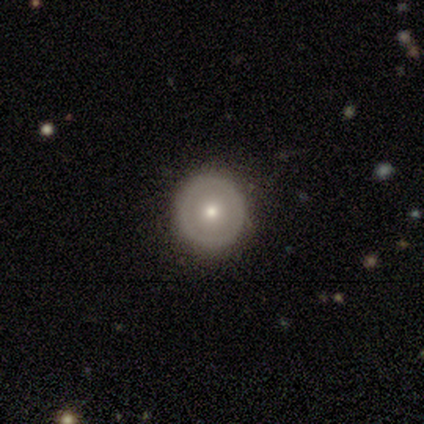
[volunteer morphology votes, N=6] smooth-or-featured: featured or disk: 67% | smooth: 33% | star or artifact: 0%
  disk-edge-on: no: 100% | yes: 0%
    bar: no: 100% | strong: 0% | weak: 0%
    has-spiral-arms: no: 100% | yes: 0%
    bulge-size: moderate: 50% (tied) | small: 50% (tied) | dominant: 0% | large: 0% | none: 0%
  merging: none: 100% | minor disturbance: 0% | major disturbance: 0% | merger: 0%